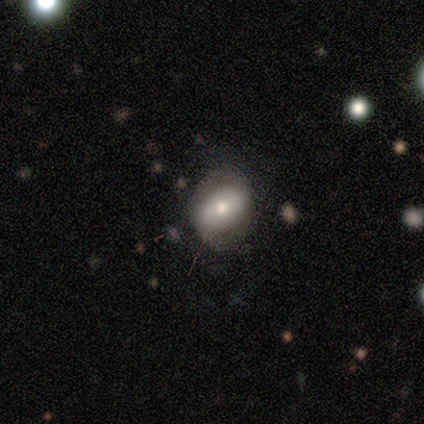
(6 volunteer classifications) Q: Smooth or featured?
A: smooth (83%); runner-up: featured or disk (17%)
Q: How rounded?
A: in between (60%); runner-up: round (40%)
Q: Merging?
A: none (83%); runner-up: minor disturbance (17%)